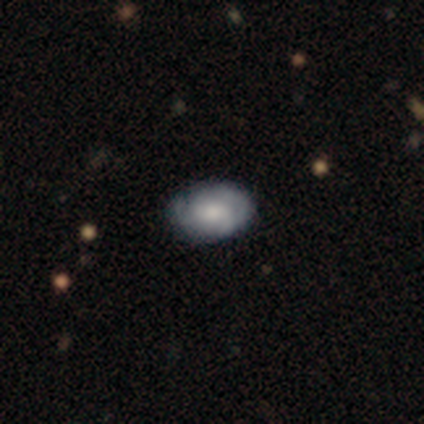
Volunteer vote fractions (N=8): Smooth or featured? smooth (50%, tied with featured or disk)
How rounded? in between (75%)
Merging? none (88%)